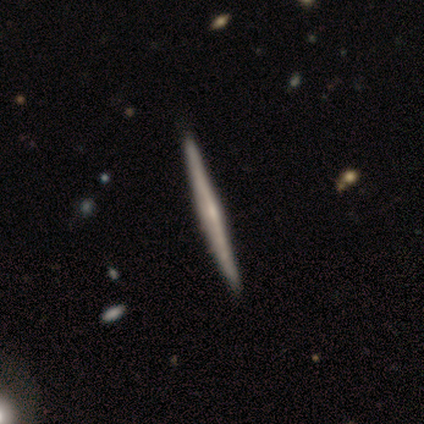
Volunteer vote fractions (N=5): Smooth or featured? featured or disk (80%)
Edge-on disk? yes (100%)
Edge-on bulge? none (50%, tied with rounded)
Merging? none (80%)